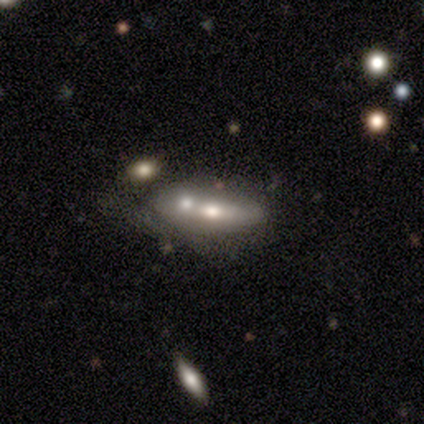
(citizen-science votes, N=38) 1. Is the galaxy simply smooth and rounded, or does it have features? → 55% featured or disk, 39% smooth, 5% star or artifact.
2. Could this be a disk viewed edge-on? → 67% no, 33% yes.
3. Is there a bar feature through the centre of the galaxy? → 79% no, 14% weak, 7% strong.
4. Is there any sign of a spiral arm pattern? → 86% no, 14% yes.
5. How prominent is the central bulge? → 86% moderate, 14% small, 0% dominant, 0% large, 0% none.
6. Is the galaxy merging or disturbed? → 67% merger, 28% none, 3% minor disturbance, 3% major disturbance.